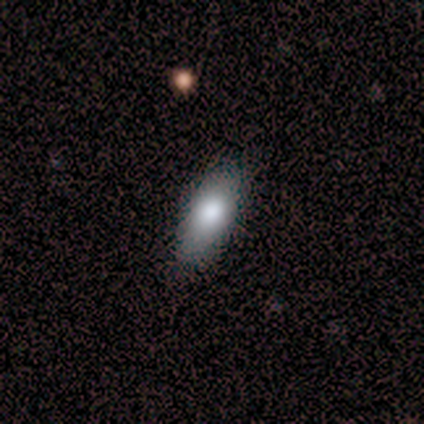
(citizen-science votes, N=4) Smooth or featured? 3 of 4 (75%) said smooth. How rounded? 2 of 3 (67%) said in between. Merging? 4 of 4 (100%) said none.